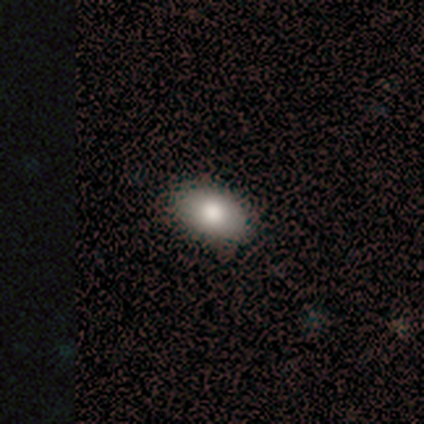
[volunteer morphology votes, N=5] Volunteers were most divided on "merging": none: 60%, minor disturbance: 40%, major disturbance: 0%, merger: 0%. More confident: smooth or featured — smooth (100%); how rounded — in between (80%).